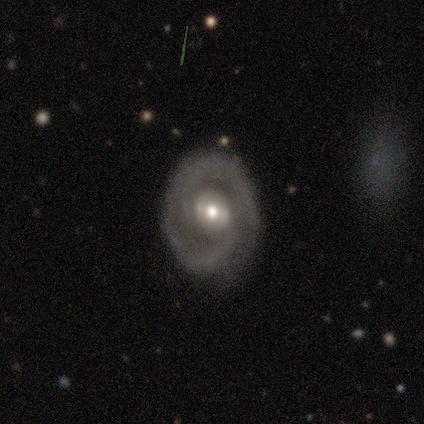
This appears to be a featured or disk galaxy (67%) with a weak bar (100%), 2 (100%) tight (100%) spiral arms (100%) and a moderate central bulge (50%, tied with small). Merging: none (67%).